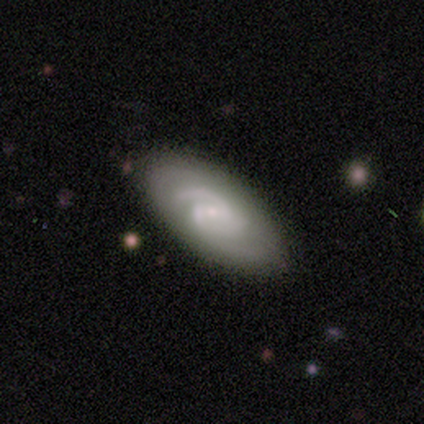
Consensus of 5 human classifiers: featured or disk 100%, smooth 0%, star or artifact 0%. Down the decision tree: edge-on disk — no (80%); bar — strong (50%, tied with weak); spiral arms — yes (100%); spiral arm count — 2 (75%); spiral winding — medium (100%); bulge size — small (50%); merging — none (80%).